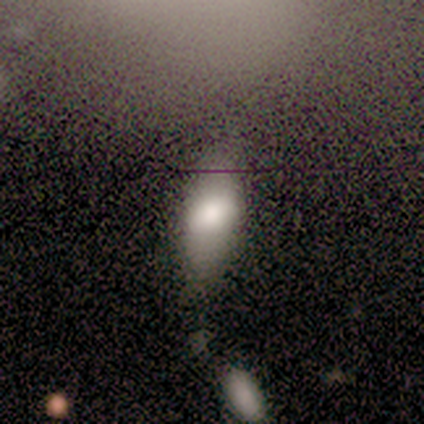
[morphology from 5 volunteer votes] Smooth or featured? 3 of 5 (60%) said smooth. How rounded? 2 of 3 (67%) said cigar-shaped. Merging? 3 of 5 (60%) said none.